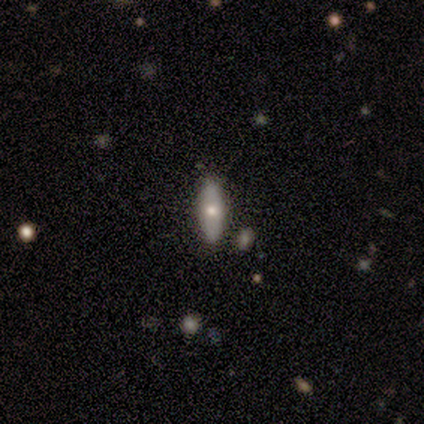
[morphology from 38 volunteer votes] smooth 66%, featured or disk 29%, star or artifact 5%. Down the decision tree: how rounded — in between (48%, tied with cigar-shaped); merging — none (89%).